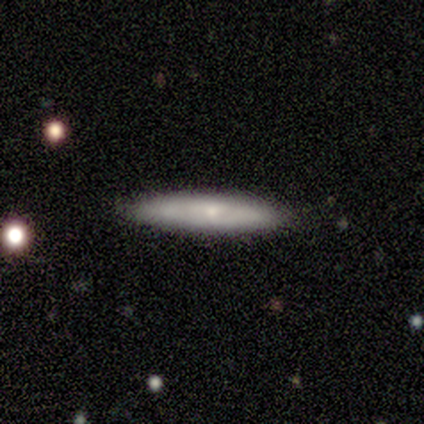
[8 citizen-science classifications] Smooth or featured?
  - smooth: 62% *
  - featured or disk: 38%
  - star or artifact: 0%
How rounded?
  - cigar-shaped: 100% *
  - round: 0%
  - in between: 0%
Merging?
  - none: 88% *
  - minor disturbance: 12%
  - major disturbance: 0%
  - merger: 0%